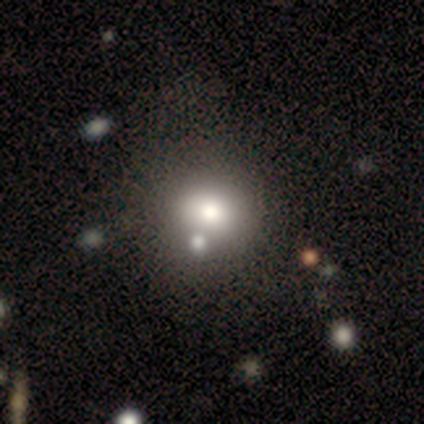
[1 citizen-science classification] smooth_or_featured: smooth (p=1.00)
how_rounded: round (p=1.00)
merging: none (p=1.00)